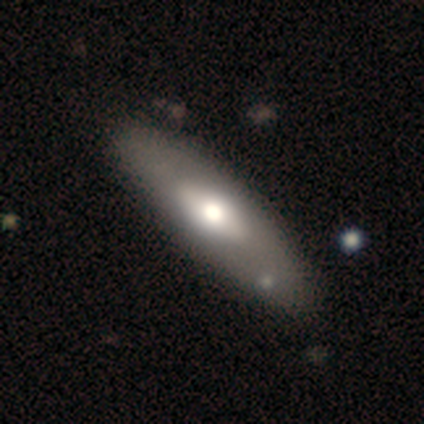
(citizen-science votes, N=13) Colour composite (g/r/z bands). It shows a smooth galaxy with no disk features (62%) that is in between round and cigar-shaped (75%). Merging: none (85%).